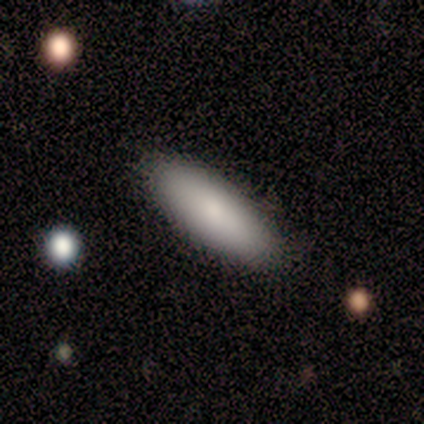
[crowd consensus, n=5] smooth-or-featured: smooth: 80% | featured or disk: 20% | star or artifact: 0%
  how-rounded: in between: 50% (tied) | cigar-shaped: 50% (tied) | round: 0%
  merging: none: 80% | minor disturbance: 20% | major disturbance: 0% | merger: 0%